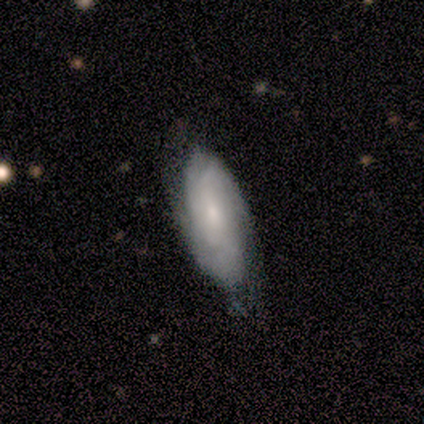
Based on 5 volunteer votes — This appears to be a featured or disk galaxy (60%) with no bar (100%), 3 (50%, tied with can't tell) tight (100%) spiral arms (67%) and a small central bulge (100%). Merging: none (80%).